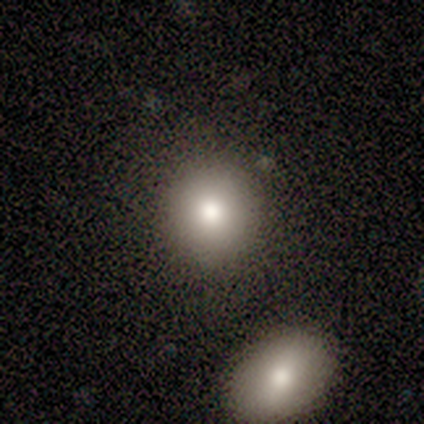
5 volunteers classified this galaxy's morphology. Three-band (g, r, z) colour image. It shows a smooth galaxy with no disk features (80%) that is round (75%). Merging: none (100%).